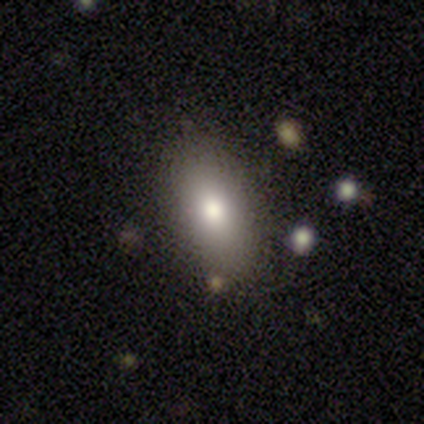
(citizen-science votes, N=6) Consensus on every question: smooth or featured — smooth (100%); how rounded — in between (100%); merging — none (100%).